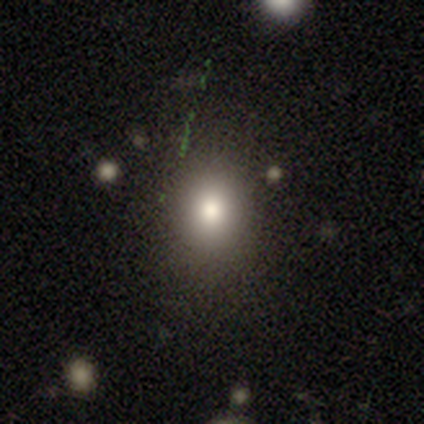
Smooth or featured? 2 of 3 (67%) said smooth. How rounded? 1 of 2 (50%, tied with in between) said round. Merging? 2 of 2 (100%) said none.